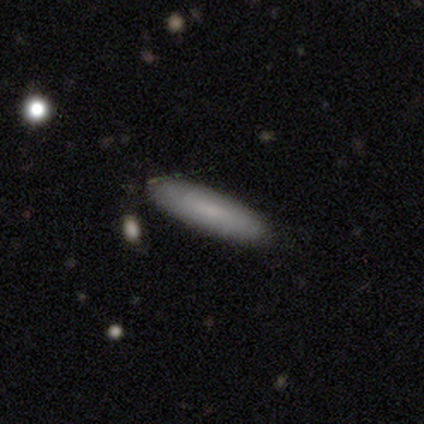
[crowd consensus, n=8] Overall: smooth (75%). How rounded: cigar-shaped (67%; in between 33%). Merging: none (75%).